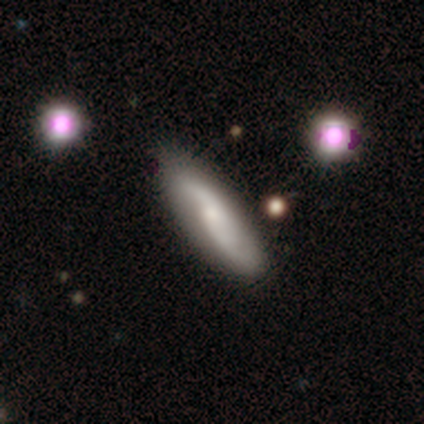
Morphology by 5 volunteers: A featured or disk galaxy (80%) viewed edge-on (50%, tied with no) with a rounded central bulge (100%).

Vote fractions:
- Smooth or featured? featured or disk: 80% / smooth: 20% / star or artifact: 0%
- Edge-on disk? yes: 50% (tied) / no: 50% (tied)
- Edge-on bulge? rounded: 100% / boxy: 0% / none: 0%
- Merging? none: 80% / merger: 20% / minor disturbance: 0% / major disturbance: 0%